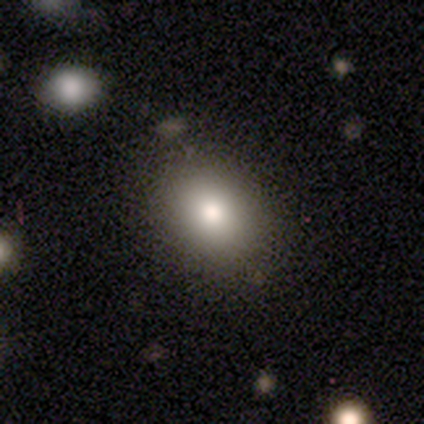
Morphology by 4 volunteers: Smooth or featured: smooth — 50% (tied with featured or disk — 50%)
How rounded: round — 50% (tied with in between — 50%)
Merging: none — 100%